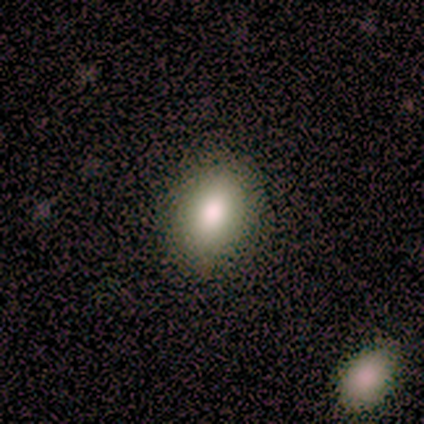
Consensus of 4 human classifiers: A smooth galaxy with no disk features (100%) that is in between round and cigar-shaped (100%). Merging: none (75%).